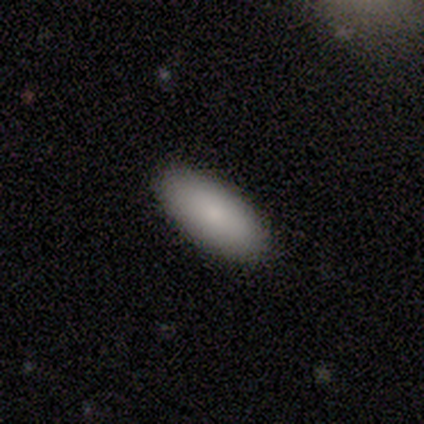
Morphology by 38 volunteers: smooth_or_featured: smooth (p=0.89) [alt: featured or disk p=0.08]
how_rounded: in between (p=0.91) [alt: cigar-shaped p=0.06]
merging: none (p=0.95) [alt: minor disturbance p=0.05]